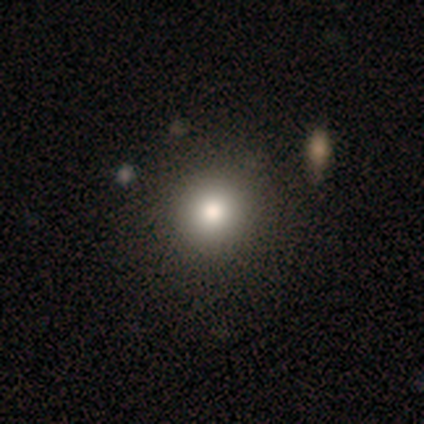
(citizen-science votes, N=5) Overall: smooth (80%). How rounded: round (100%). Merging: none (75%).